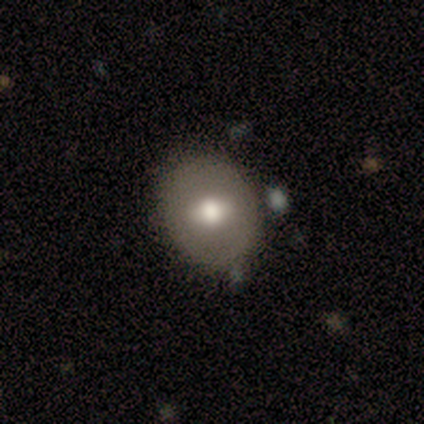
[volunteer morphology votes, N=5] Q: Smooth or featured?
A: smooth (80%); runner-up: featured or disk (20%)
Q: How rounded?
A: in between (75%); runner-up: round (25%)
Q: Merging?
A: none (80%); runner-up: minor disturbance (20%)